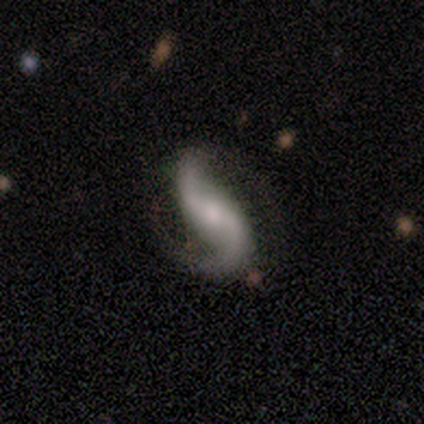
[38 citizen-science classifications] featured or disk 97%, smooth 3%, star or artifact 0%. Down the decision tree: edge-on disk — no (95%); bar — weak (37%); spiral arms — yes (97%); spiral arm count — 2 (97%); spiral winding — loose (71%); bulge size — small (51%); merging — none (74%).